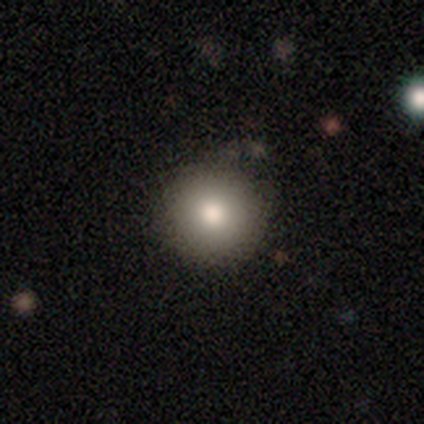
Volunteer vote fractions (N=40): Q: Smooth or featured?
A: smooth (80%); runner-up: featured or disk (10%)
Q: How rounded?
A: round (97%); runner-up: in between (3%)
Q: Merging?
A: none (86%); runner-up: minor disturbance (11%)